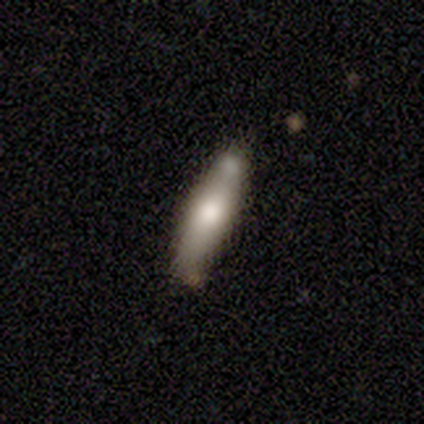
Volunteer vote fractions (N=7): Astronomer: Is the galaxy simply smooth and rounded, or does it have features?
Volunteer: smooth — 71%.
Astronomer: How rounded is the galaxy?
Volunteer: in between — 60% (runner-up: cigar-shaped, 40%).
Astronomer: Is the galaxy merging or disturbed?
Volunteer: none — 43%, tied with minor disturbance at 43%.